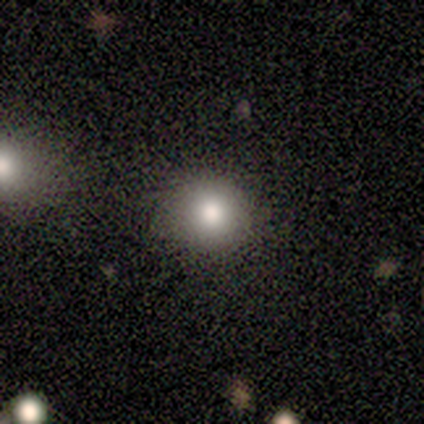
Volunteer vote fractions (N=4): This appears to be a smooth galaxy with no disk features (75%) that is round (100%). Merging: none (100%).